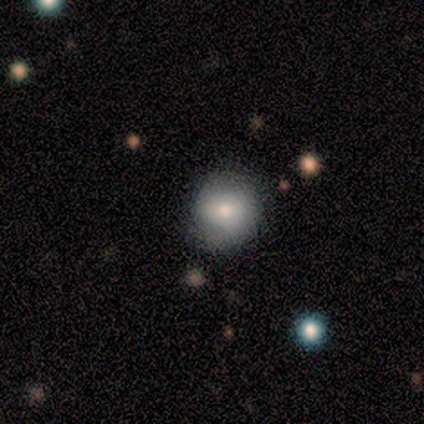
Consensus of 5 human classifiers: smooth-or-featured: smooth: 80% | featured or disk: 20% | star or artifact: 0%
  how-rounded: round: 100% | in between: 0% | cigar-shaped: 0%
  merging: none: 100% | minor disturbance: 0% | major disturbance: 0% | merger: 0%